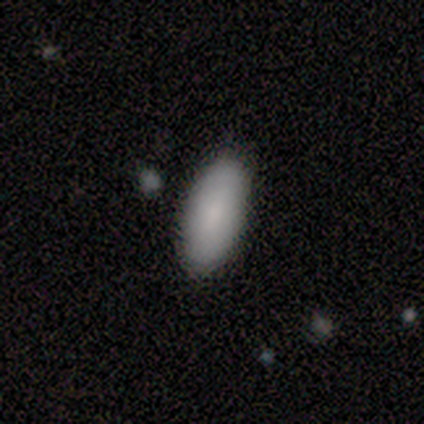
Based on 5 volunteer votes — This is clearly a smooth galaxy (80%). How rounded: likely in between (75%). Merging: clearly none (100%).